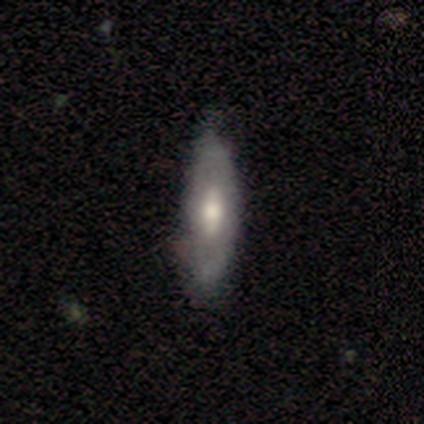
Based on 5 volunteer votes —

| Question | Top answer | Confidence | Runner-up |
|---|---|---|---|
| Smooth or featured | smooth | 40% | tied: featured or disk (40%) |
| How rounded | in between | 50% | tied: cigar-shaped (50%) |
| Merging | none | 50% | tied: minor disturbance (50%) |